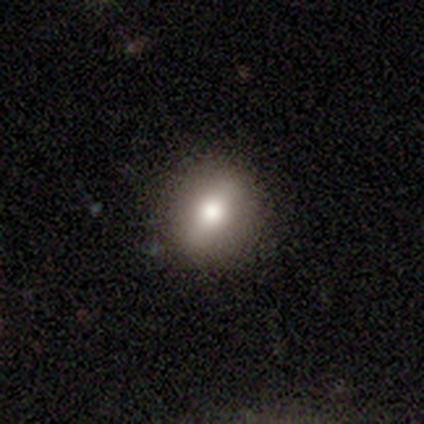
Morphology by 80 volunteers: type=smooth (75%); roundness=round (68%); merging=none (47%).